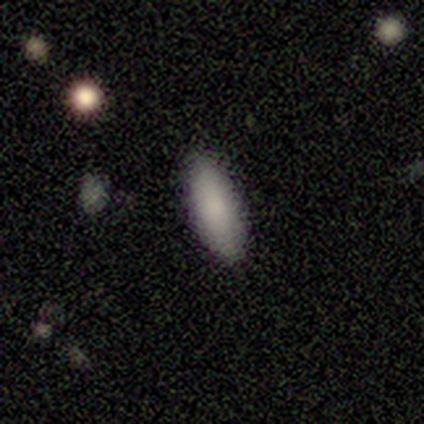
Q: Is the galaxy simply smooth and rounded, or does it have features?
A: smooth — 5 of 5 (100%).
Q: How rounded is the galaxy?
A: in between — 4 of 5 (80%).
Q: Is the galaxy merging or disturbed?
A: none — 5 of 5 (100%).